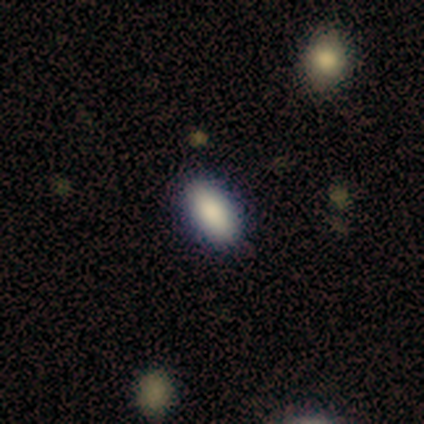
Smooth or featured?
  - smooth: 93% *
  - star or artifact: 7%
  - featured or disk: 0%
How rounded?
  - in between: 100% *
  - round: 0%
  - cigar-shaped: 0%
Merging?
  - none: 100% *
  - minor disturbance: 0%
  - major disturbance: 0%
  - merger: 0%